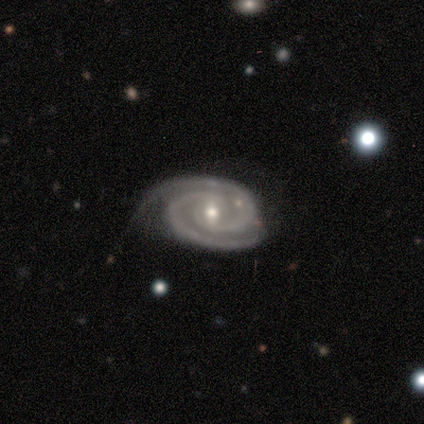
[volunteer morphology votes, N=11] Smooth or featured? featured or disk (100%)
Edge-on disk? no (91%)
Bar? weak (60%)
Spiral arms? yes (100%)
Spiral winding? tight (90%)
Spiral arm count? 2 (100%)
Bulge size? small (70%)
Merging? none (64%)